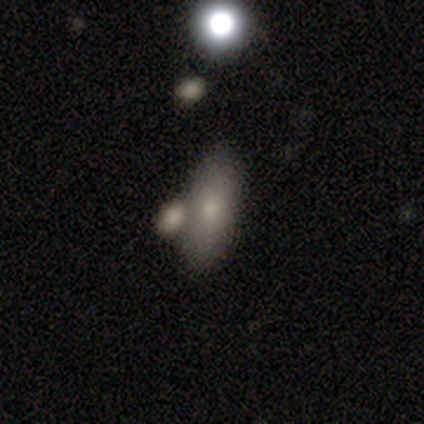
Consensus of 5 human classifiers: This is clearly a smooth galaxy (100%). How rounded: likely in between (60%). Merging: marginally none (40%, tied with merger).